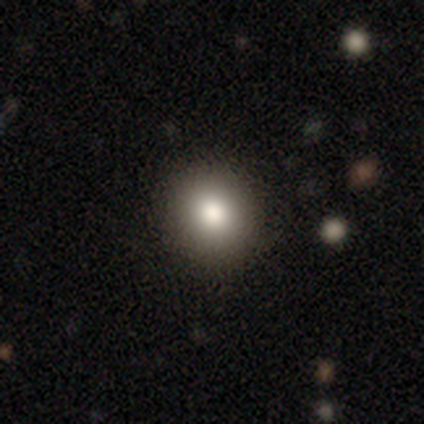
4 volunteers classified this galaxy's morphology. A smooth galaxy with no disk features (75%) that is round (100%). Merging: none (100%).